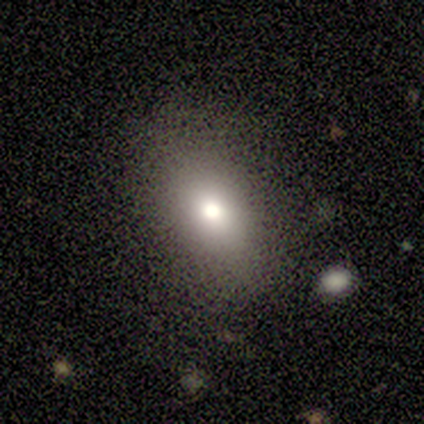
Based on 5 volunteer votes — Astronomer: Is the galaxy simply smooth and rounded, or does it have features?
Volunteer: smooth — 80%.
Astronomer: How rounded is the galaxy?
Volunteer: round — 50%, tied with in between at 50%.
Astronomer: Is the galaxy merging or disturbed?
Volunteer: none — 75%.